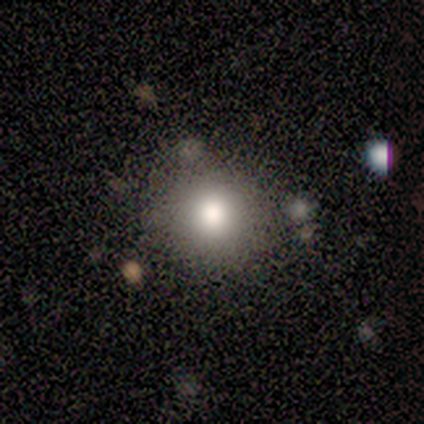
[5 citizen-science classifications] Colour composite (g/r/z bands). It shows a smooth galaxy with no disk features (80%) that is round (100%). Merging: none (50%, tied with minor disturbance).